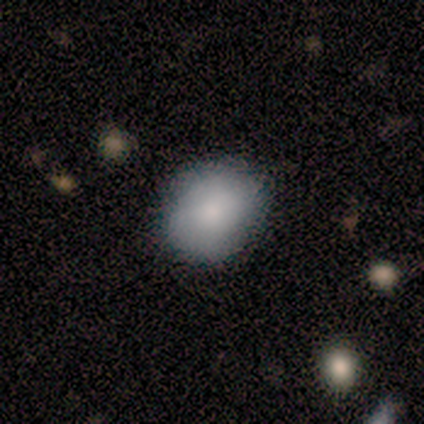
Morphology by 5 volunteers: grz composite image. It shows a smooth galaxy with no disk features (100%) that is in between round and cigar-shaped (60%). Merging: none (100%).